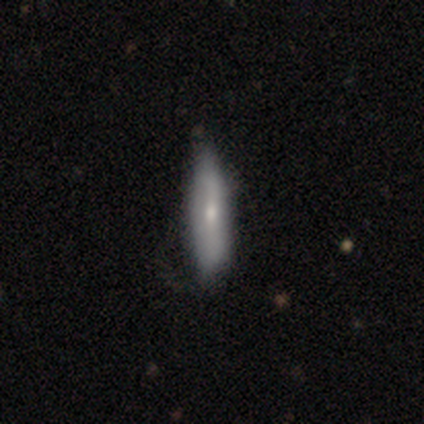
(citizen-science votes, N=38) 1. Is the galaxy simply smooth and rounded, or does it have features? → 58% smooth, 42% featured or disk, 0% star or artifact.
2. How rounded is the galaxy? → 59% cigar-shaped, 41% in between, 0% round.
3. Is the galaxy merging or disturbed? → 37% none, 21% minor disturbance, 3% major disturbance, 0% merger.